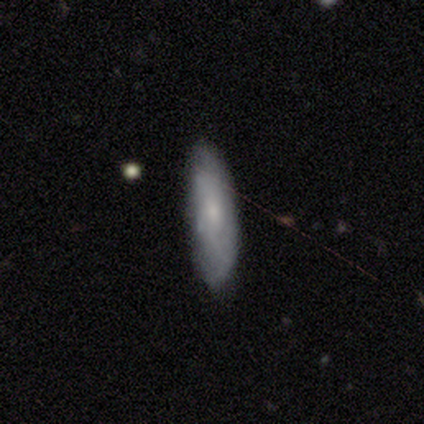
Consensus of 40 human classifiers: Q: Smooth or featured?
A: featured or disk (48%); runner-up: smooth (45%)
Q: Edge-on disk?
A: no (63%); runner-up: yes (37%)
Q: Bar?
A: no (58%); runner-up: weak (42%)
Q: Spiral arms?
A: yes (50%); tied with: no (50%)
Q: Spiral winding?
A: tight (33%); tied with: medium (33%); loose (33%)
Q: Spiral arm count?
A: can't tell (67%); runner-up: 1 (17%)
Q: Bulge size?
A: small (75%); runner-up: none (17%)
Q: Merging?
A: none (76%); runner-up: minor disturbance (19%)